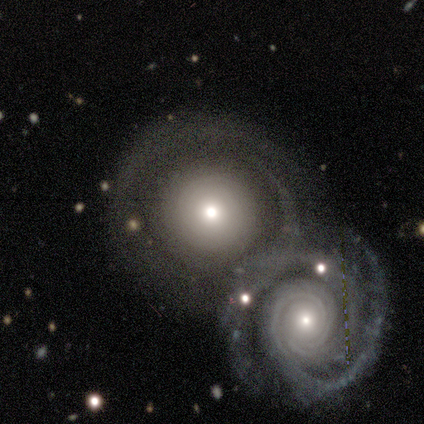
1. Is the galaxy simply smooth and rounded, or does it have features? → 60% smooth, 20% featured or disk, 20% star or artifact.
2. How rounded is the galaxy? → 100% round, 0% in between, 0% cigar-shaped.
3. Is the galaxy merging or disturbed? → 50% none (tied), 50% merger (tied), 0% minor disturbance, 0% major disturbance.